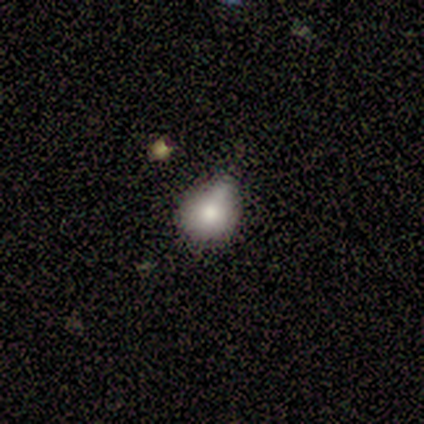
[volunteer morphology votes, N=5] smooth-or-featured: smooth: 100% | featured or disk: 0% | star or artifact: 0%
  how-rounded: round: 60% | in between: 40% | cigar-shaped: 0%
  merging: minor disturbance: 80% | major disturbance: 20% | none: 0% | merger: 0%